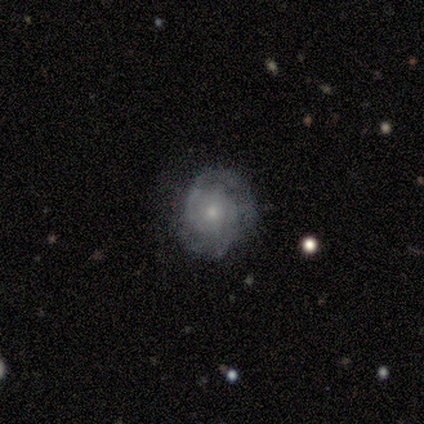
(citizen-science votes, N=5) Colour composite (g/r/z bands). It shows a featured or disk galaxy (80%) with no bar (100%), tight (100%) spiral arms (100%) and a small central bulge (100%). Merging: none (80%).